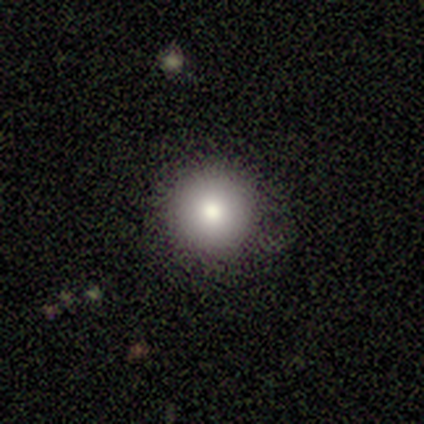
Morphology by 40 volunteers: Volunteers were most divided on "smooth or featured": smooth: 65%, star or artifact: 28%, featured or disk: 8%. More confident: how rounded — round (96%); merging — none (90%).